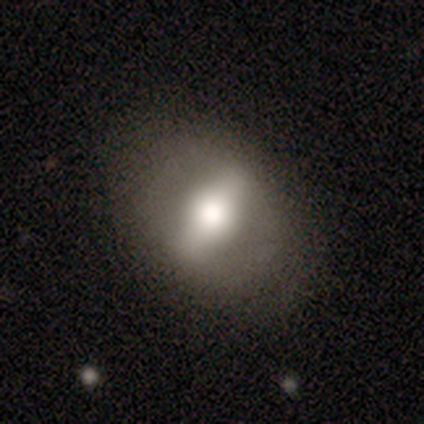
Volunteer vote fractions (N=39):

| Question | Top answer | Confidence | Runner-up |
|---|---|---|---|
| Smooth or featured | featured or disk | 64% | smooth (31%) |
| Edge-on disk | no | 72% | yes (28%) |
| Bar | strong | 100% | — |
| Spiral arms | no | 83% | yes (17%) |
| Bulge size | large | 50% | moderate (33%) |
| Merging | none | 70% | minor disturbance (16%) |